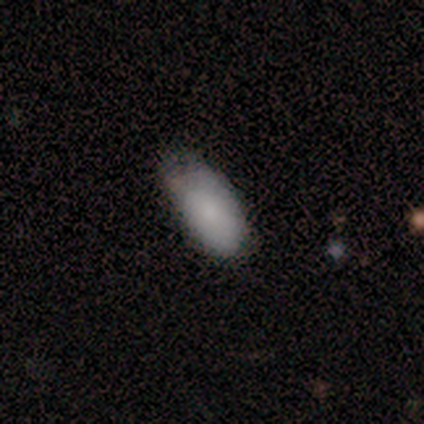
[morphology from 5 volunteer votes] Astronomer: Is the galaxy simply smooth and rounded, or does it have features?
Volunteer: smooth — 60%.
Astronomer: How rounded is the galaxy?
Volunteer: in between — 100%.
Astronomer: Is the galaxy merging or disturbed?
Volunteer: none — 75%.